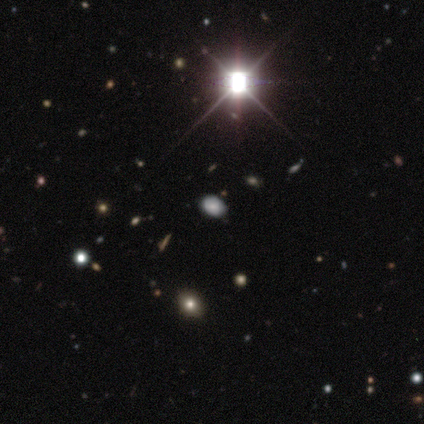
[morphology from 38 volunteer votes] Smooth or featured: star or artifact — 61% (smooth — 34%)